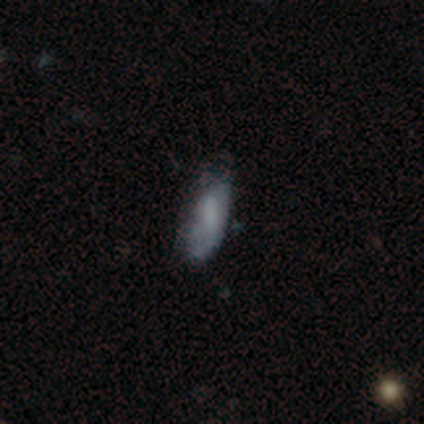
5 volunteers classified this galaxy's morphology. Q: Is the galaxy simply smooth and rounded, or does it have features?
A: smooth — 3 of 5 (60%).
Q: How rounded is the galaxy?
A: in between — 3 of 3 (100%).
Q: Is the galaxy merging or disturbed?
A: none — 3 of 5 (60%).